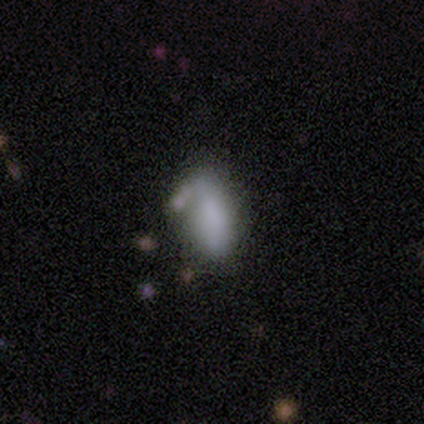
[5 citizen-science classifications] A smooth galaxy with no disk features (100%) that is in between round and cigar-shaped (80%).

Vote fractions:
- Smooth or featured? smooth: 100% / featured or disk: 0% / star or artifact: 0%
- How rounded? in between: 80% / cigar-shaped: 20% / round: 0%
- Merging? none: 60% / minor disturbance: 40% / major disturbance: 0% / merger: 0%